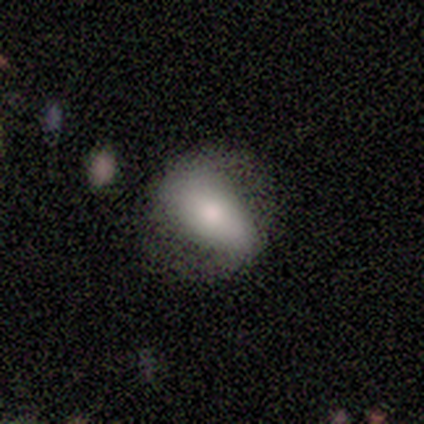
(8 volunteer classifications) This appears to be a smooth galaxy with no disk features (75%) that is in between round and cigar-shaped (100%). Merging: none (75%).